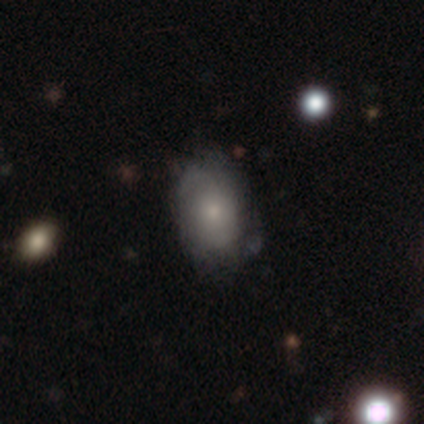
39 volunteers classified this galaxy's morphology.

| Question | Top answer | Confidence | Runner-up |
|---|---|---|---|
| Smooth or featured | smooth | 59% | featured or disk (36%) |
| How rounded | in between | 91% | round (4%) |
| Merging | none | 57% | minor disturbance (30%) |